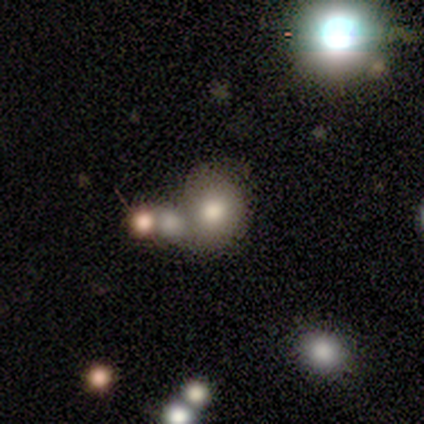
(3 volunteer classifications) Volunteers were most divided on "how rounded" (2-way tie): round: 50%, in between: 50%, cigar-shaped: 0%. More confident: smooth or featured — smooth (67%); merging — none (67%).